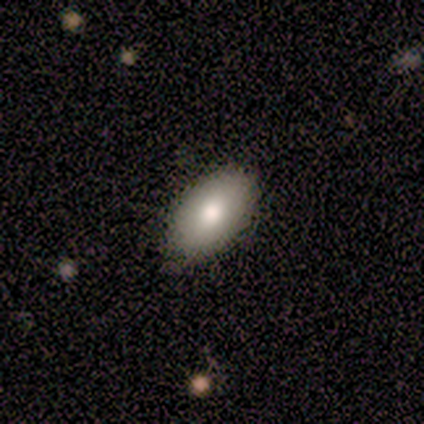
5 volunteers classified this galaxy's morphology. type=smooth (80%); roundness=in between (100%); merging=none (100%).